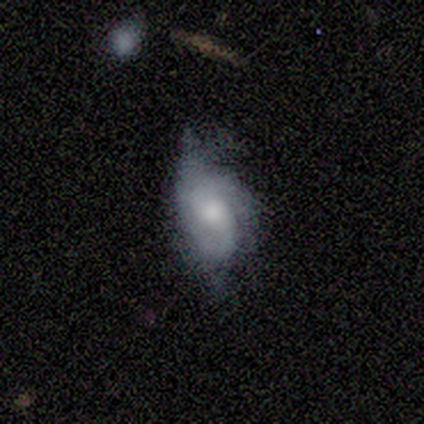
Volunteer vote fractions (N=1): featured or disk 100%, smooth 0%, star or artifact 0%. Down the decision tree: edge-on disk — no (100%); bar — no (100%); spiral arms — yes (100%); spiral arm count — 1 (100%); spiral winding — tight (100%); bulge size — moderate (100%); merging — minor disturbance (100%).